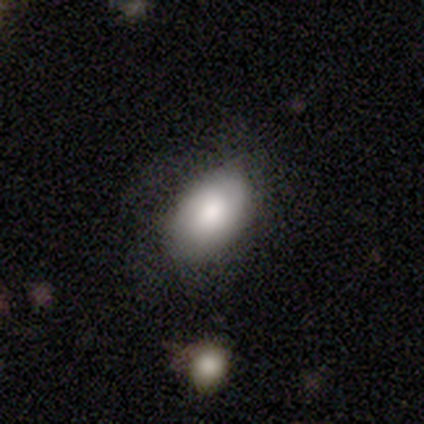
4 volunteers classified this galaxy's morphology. Smooth or featured: smooth — 100%
How rounded: in between — 100%
Merging: none — 75% (minor disturbance — 25%)